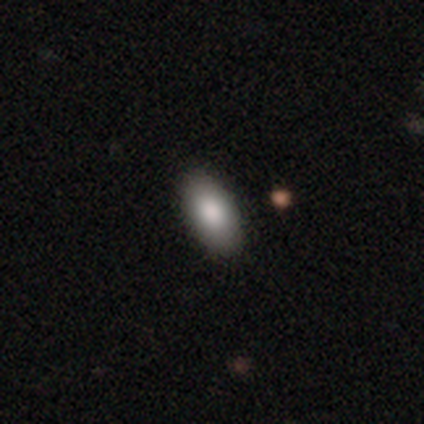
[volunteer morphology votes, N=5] smooth_or_featured: smooth (p=1.00)
how_rounded: in between (p=0.80) [alt: cigar-shaped p=0.20]
merging: none (p=0.80) [alt: minor disturbance p=0.20]